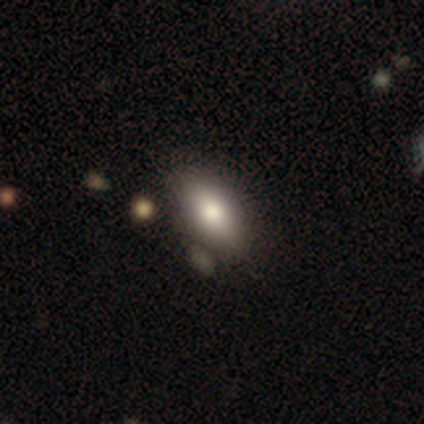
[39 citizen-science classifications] This is likely a smooth galaxy (74%). How rounded: clearly in between (97%). Merging: likely none (62%).